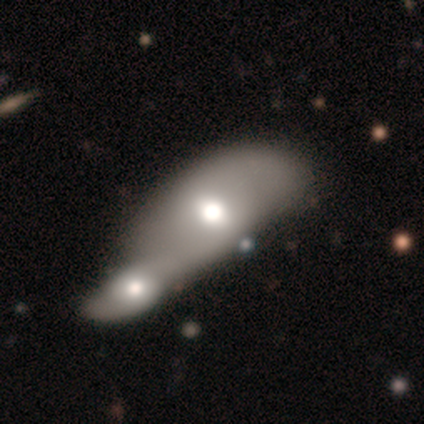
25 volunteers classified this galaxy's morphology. Smooth or featured? 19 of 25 (76%) said smooth. How rounded? 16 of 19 (84%) said in between. Merging? 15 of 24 (62%) said merger.